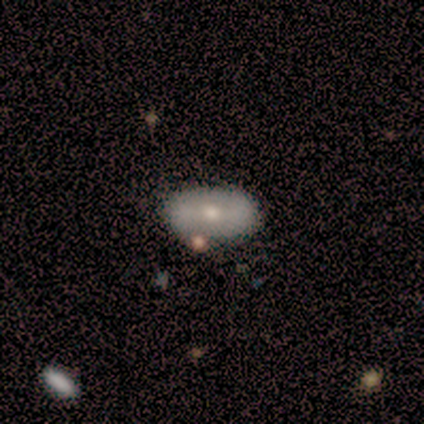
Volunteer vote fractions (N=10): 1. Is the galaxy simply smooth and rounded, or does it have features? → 50% featured or disk, 40% smooth, 10% star or artifact.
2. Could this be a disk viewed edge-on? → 100% no, 0% yes.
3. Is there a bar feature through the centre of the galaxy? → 60% no, 20% strong, 20% weak.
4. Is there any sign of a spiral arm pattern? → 100% no, 0% yes.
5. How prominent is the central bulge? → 60% small, 40% moderate, 0% dominant, 0% large, 0% none.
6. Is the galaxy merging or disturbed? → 78% none, 11% minor disturbance, 11% merger, 0% major disturbance.